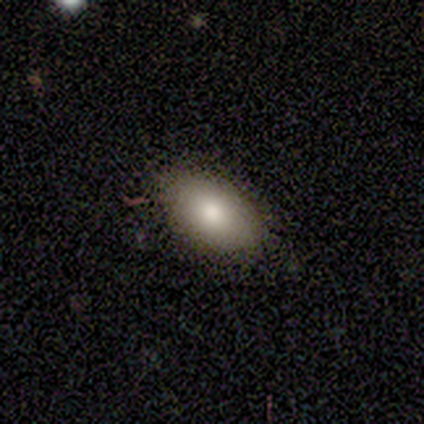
Smooth or featured? 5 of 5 (100%) said smooth. How rounded? 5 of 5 (100%) said in between. Merging? 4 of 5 (80%) said none.